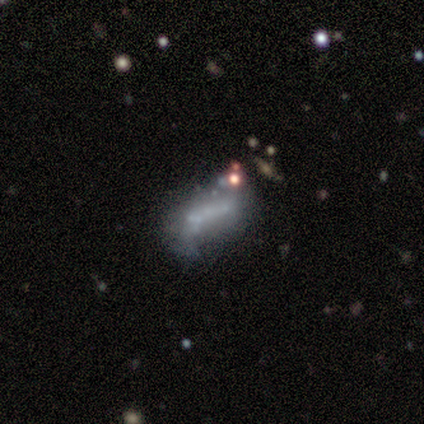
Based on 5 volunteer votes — Smooth or featured? 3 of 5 (60%) said featured or disk. Edge-on disk? 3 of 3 (100%) said no. Bar? 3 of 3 (100%) said no. Spiral arms? 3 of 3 (100%) said no. Bulge size? 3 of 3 (100%) said none. Merging? 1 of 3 (33%, tied with major disturbance and merger) said minor disturbance.